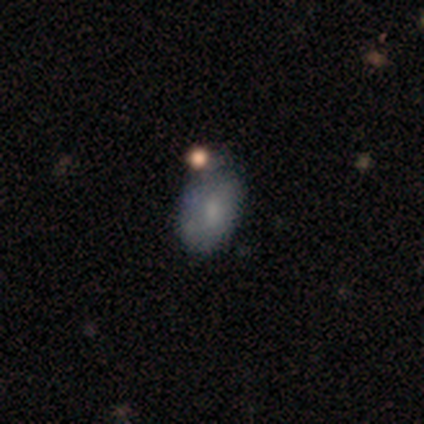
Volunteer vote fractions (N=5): Morphology: type=smooth (80%); roundness=in between (100%); merging=none (80%).